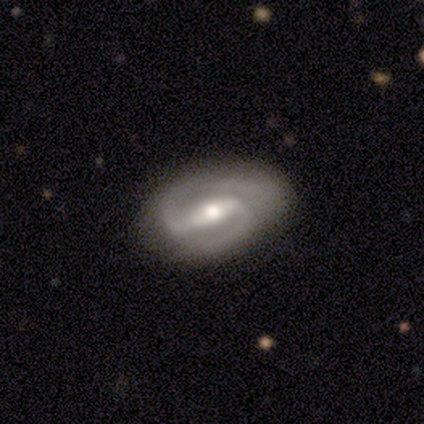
smooth_or_featured: featured or disk (p=0.75) [alt: star or artifact p=0.25]
disk_edge_on: no (p=1.00)
bar: strong (p=1.00)
has_spiral_arms: yes (p=1.00)
spiral_winding: medium (p=0.67) [alt: loose p=0.33]
spiral_arm_count: 2 (p=1.00)
bulge_size: moderate (p=0.67) [alt: small p=0.33]
merging: none (p=0.33) [tied with: minor disturbance p=0.33, major disturbance p=0.33]